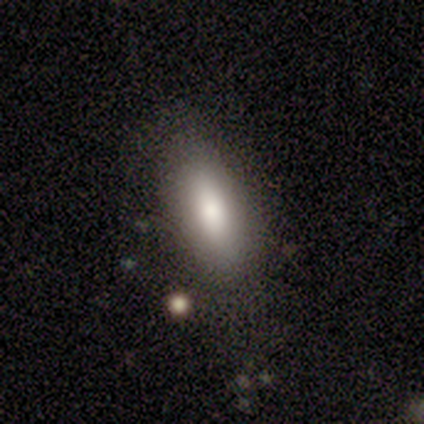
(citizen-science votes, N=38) Smooth or featured? smooth (82%)
How rounded? in between (61%)
Merging? none (82%)